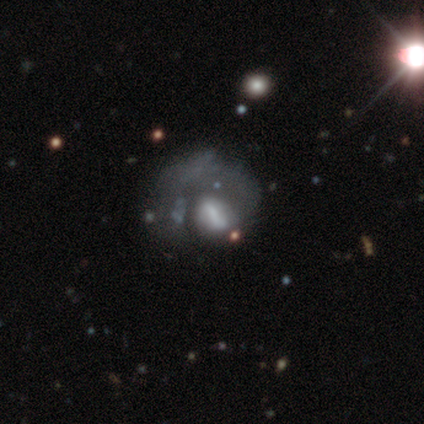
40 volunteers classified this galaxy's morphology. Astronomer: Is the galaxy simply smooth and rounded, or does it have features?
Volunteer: featured or disk — 70%.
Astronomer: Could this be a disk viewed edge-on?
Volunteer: no — 100%.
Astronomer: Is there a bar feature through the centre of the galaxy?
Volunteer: strong — 36%, tied with no at 36%.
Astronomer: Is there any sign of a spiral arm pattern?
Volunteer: no — 68%.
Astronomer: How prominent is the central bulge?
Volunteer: none — 46%.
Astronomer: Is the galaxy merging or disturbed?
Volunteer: major disturbance — 42% (runner-up: none, 19%).